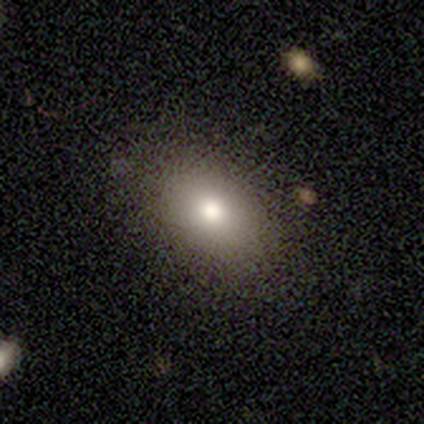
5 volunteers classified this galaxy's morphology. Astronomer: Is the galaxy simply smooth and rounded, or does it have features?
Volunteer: smooth — 80%.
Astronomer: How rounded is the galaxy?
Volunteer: in between — 100%.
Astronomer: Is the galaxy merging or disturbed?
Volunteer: none — 100%.